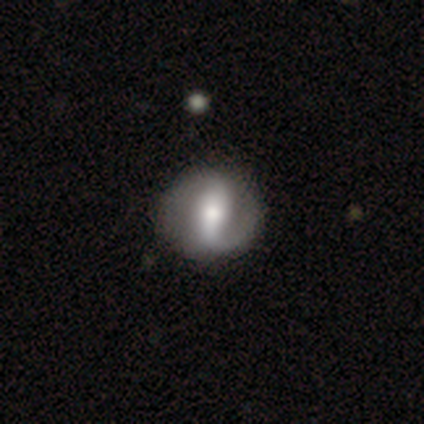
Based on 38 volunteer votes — This appears to be a featured or disk galaxy (84%) with a strong bar (62%), 2 (86%) medium (38%) spiral arms (91%) and a moderate central bulge (75%). Merging: none (94%).